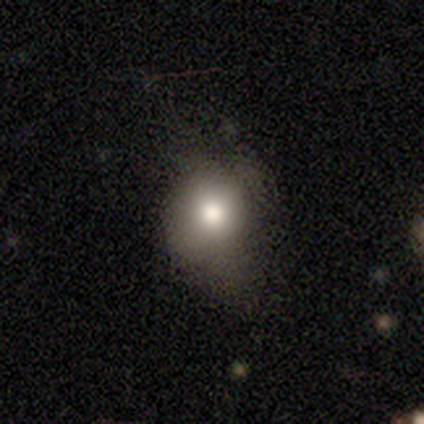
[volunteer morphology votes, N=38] A smooth galaxy with no disk features (71%) that is round (59%).

Vote fractions:
- Smooth or featured? smooth: 71% / featured or disk: 16% / star or artifact: 13%
- How rounded? round: 59% / in between: 41% / cigar-shaped: 0%
- Merging? none: 55% / minor disturbance: 30% / major disturbance: 15% / merger: 0%